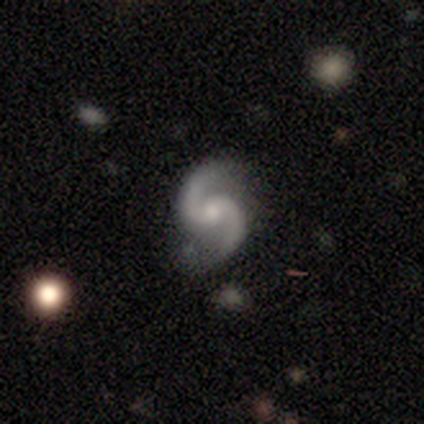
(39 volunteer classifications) This appears to be a featured or disk galaxy (95%) with no bar (59%), 2 (97%) medium (62%) spiral arms (100%) and a small central bulge (49%). Merging: none (82%).